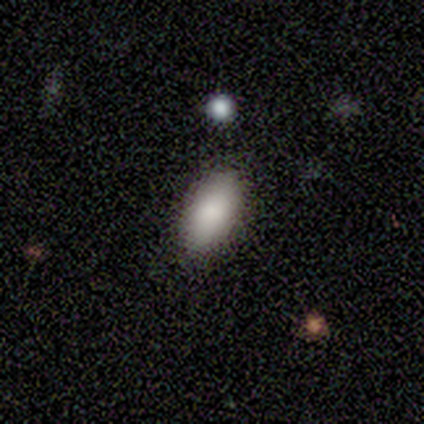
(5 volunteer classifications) A smooth galaxy with no disk features (80%) that is in between round and cigar-shaped (100%).

Vote fractions:
- Smooth or featured? smooth: 80% / star or artifact: 20% / featured or disk: 0%
- How rounded? in between: 100% / round: 0% / cigar-shaped: 0%
- Merging? none: 75% / minor disturbance: 25% / major disturbance: 0% / merger: 0%